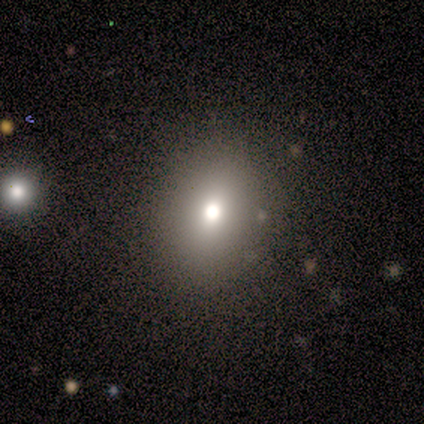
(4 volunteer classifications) A smooth galaxy with no disk features (75%) that is in between round and cigar-shaped (67%). Merging: none (75%).